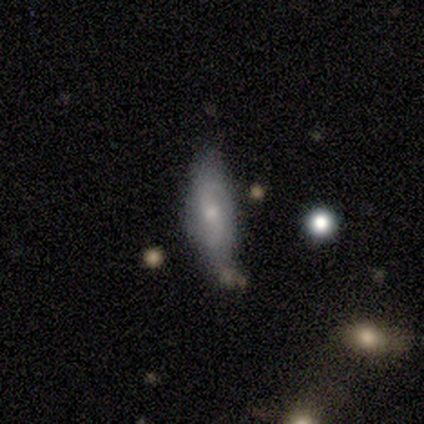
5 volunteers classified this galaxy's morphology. smooth_or_featured: smooth (p=1.00)
how_rounded: cigar-shaped (p=0.60) [alt: in between p=0.40]
merging: minor disturbance (p=0.60) [alt: none p=0.40]